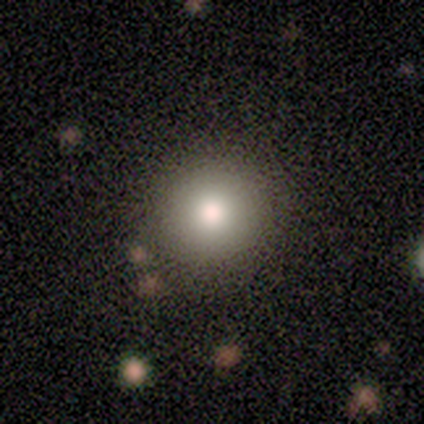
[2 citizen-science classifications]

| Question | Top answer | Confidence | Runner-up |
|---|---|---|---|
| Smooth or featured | smooth | 100% | — |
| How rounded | round | 100% | — |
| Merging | none | 100% | — |